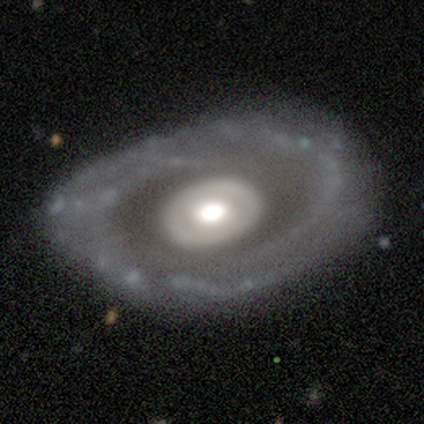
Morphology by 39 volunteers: type=featured or disk (82%); edge-on=no (94%); bar=no (97%); spiral arms=no (63%); bulge=large (53%); merging=none (77%).